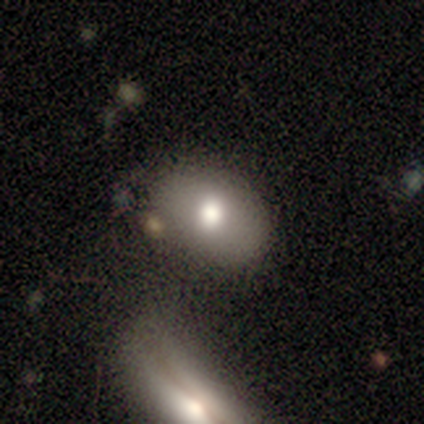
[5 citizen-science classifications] Volunteers were most divided on "merging": none: 60%, minor disturbance: 40%, major disturbance: 0%, merger: 0%. More confident: smooth or featured — smooth (80%); how rounded — in between (75%).